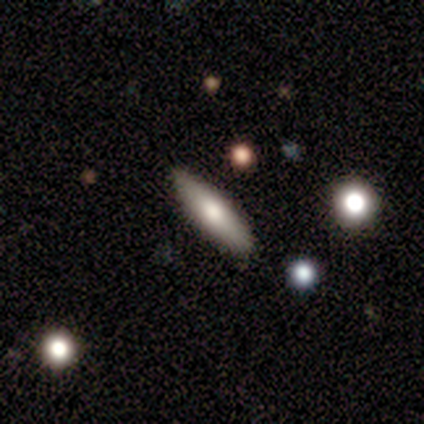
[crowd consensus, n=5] Smooth or featured?
  - smooth: 80% *
  - featured or disk: 20%
  - star or artifact: 0%
How rounded?
  - in between: 100% *
  - round: 0%
  - cigar-shaped: 0%
Merging?
  - none: 80% *
  - minor disturbance: 20%
  - major disturbance: 0%
  - merger: 0%